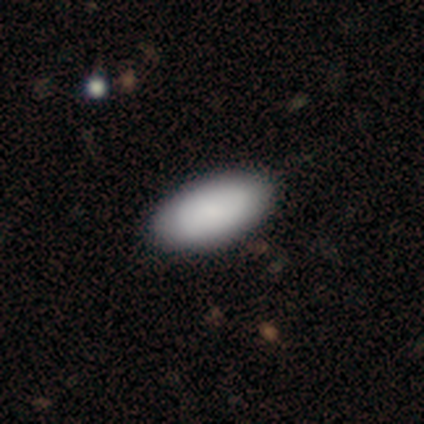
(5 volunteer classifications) This appears to be a smooth galaxy with no disk features (80%) that is in between round and cigar-shaped (100%). Merging: none (100%).